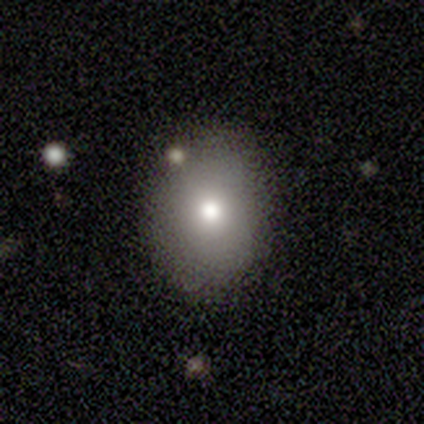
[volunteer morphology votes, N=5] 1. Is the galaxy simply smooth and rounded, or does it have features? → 60% smooth, 40% star or artifact, 0% featured or disk.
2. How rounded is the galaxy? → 67% in between, 33% round, 0% cigar-shaped.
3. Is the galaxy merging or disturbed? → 67% none, 33% minor disturbance, 0% major disturbance, 0% merger.